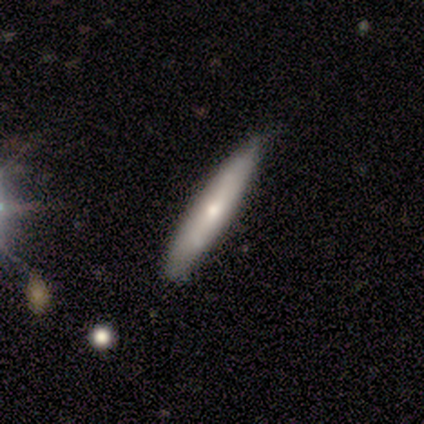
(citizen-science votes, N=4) Q: Smooth or featured?
A: featured or disk (75%); runner-up: smooth (25%)
Q: Edge-on disk?
A: yes (100%)
Q: Edge-on bulge?
A: rounded (100%)
Q: Merging?
A: none (75%); runner-up: minor disturbance (25%)